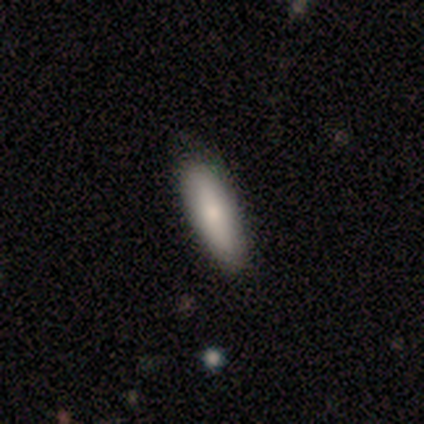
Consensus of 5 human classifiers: Volunteers were most divided on "how rounded": cigar-shaped: 75%, in between: 25%, round: 0%. More confident: smooth or featured — smooth (80%); merging — none (80%).